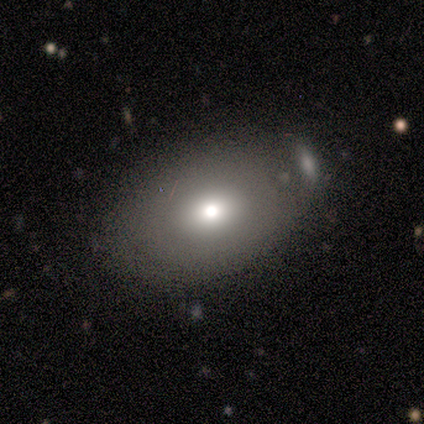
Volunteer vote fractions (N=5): smooth_or_featured: featured or disk (p=0.60) [alt: smooth p=0.40]
disk_edge_on: no (p=0.67) [alt: yes p=0.33]
bar: weak (p=0.50) [tied with: no p=0.50]
has_spiral_arms: no (p=1.00)
bulge_size: large (p=0.50) [tied with: small p=0.50]
merging: none (p=0.60) [alt: minor disturbance p=0.20]